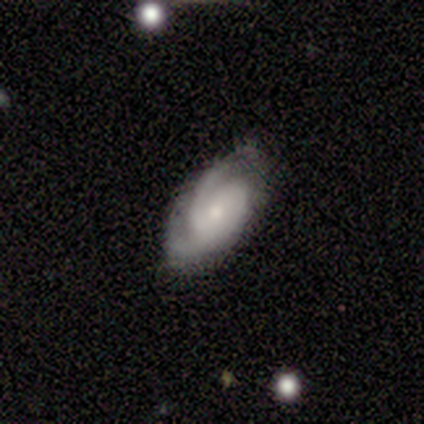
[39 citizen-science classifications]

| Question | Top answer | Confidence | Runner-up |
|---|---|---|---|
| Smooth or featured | featured or disk | 82% | smooth (10%) |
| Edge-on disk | no | 100% | — |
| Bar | no | 78% | weak (19%) |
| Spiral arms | yes | 91% | no (9%) |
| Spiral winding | tight | 66% | medium (31%) |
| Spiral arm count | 2 | 52% | can't tell (28%) |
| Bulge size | small | 53% | moderate (41%) |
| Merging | none | 53% | minor disturbance (42%) |